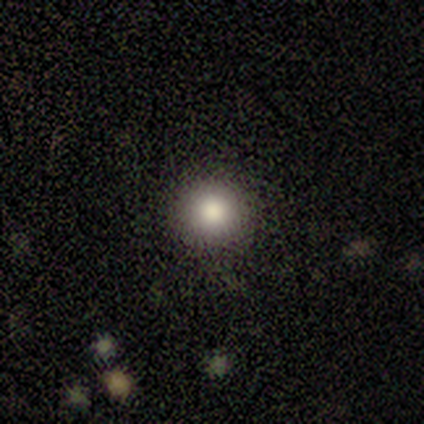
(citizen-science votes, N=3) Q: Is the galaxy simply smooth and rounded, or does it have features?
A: smooth — 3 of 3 (100%).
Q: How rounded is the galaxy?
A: round — 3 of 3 (100%).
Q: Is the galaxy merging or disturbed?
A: none — 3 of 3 (100%).